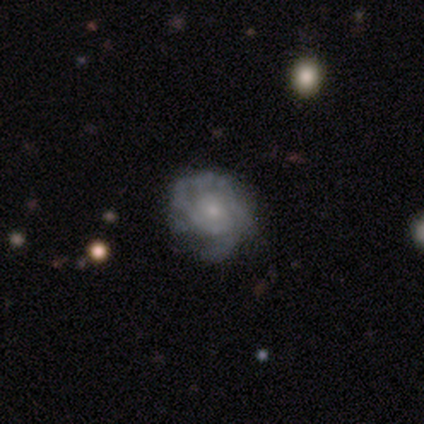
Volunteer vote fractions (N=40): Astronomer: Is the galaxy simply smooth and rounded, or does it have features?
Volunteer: featured or disk — 90%.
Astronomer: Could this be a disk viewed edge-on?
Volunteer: no — 100%.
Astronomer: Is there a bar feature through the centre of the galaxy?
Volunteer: no — 81%.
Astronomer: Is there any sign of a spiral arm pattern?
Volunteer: yes — 89%.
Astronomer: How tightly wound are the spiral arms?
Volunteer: tight — 66%.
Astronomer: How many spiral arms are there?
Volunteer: can't tell — 44% (runner-up: 2, 28%).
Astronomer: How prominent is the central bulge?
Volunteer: small — 64%.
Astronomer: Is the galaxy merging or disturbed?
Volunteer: none — 50%.